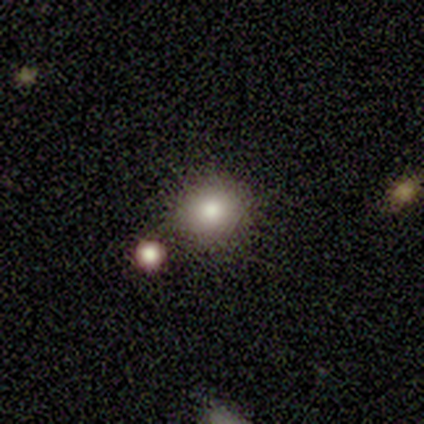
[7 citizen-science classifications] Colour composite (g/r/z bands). It shows a smooth galaxy with no disk features (57%) that is round (75%). Merging: none (80%).